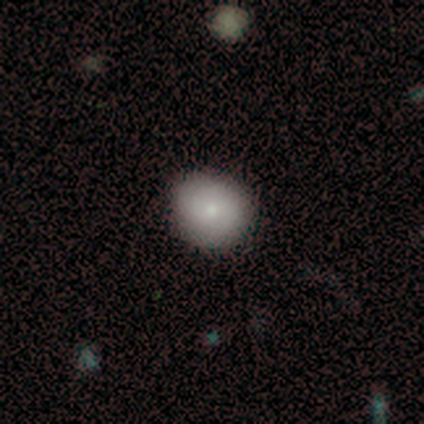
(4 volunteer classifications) Q: Smooth or featured?
A: smooth (75%); runner-up: star or artifact (25%)
Q: How rounded?
A: round (67%); runner-up: in between (33%)
Q: Merging?
A: none (100%)